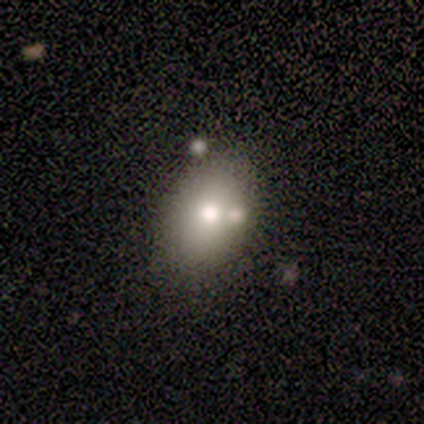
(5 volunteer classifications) A smooth galaxy with no disk features (80%) that is in between round and cigar-shaped (75%). Merging: none (50%, tied with merger).